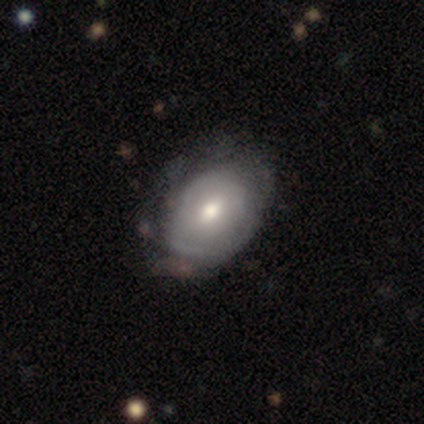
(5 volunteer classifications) Smooth or featured?
  - featured or disk: 60% *
  - smooth: 40%
  - star or artifact: 0%
Edge-on disk?
  - no: 100% *
  - yes: 0%
Bar?
  - no: 67% *
  - weak: 33%
  - strong: 0%
Spiral arms?
  - yes: 67% *
  - no: 33%
Spiral winding?
  - tight: 100% *
  - medium: 0%
  - loose: 0%
Spiral arm count?
  - 3: 50% * (tied)
  - can't tell: 50% * (tied)
  - 1: 0%
  - 2: 0%
  - 4: 0%
  - more than 4: 0%
Bulge size?
  - large: 67% *
  - small: 33%
  - dominant: 0%
  - moderate: 0%
  - none: 0%
Merging?
  - none: 60% *
  - minor disturbance: 40%
  - major disturbance: 0%
  - merger: 0%